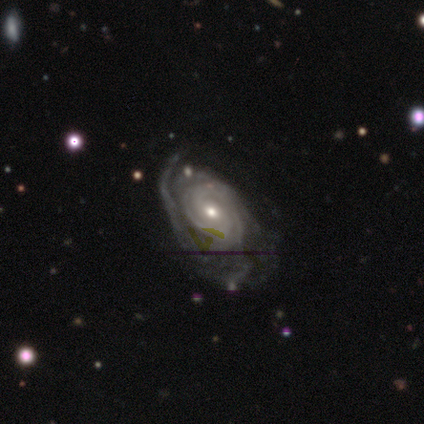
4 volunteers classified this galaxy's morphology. smooth-or-featured: featured or disk: 100% | smooth: 0% | star or artifact: 0%
  disk-edge-on: no: 100% | yes: 0%
    bar: no: 75% | weak: 25% | strong: 0%
    has-spiral-arms: yes: 75% | no: 25%
      spiral-winding: tight: 67% | medium: 33% | loose: 0%
      spiral-arm-count: can't tell: 67% | 2: 33% | 1: 0% | 3: 0% | 4: 0% | more than 4: 0%
    bulge-size: moderate: 50% (tied) | small: 50% (tied) | dominant: 0% | large: 0% | none: 0%
  merging: none: 50% | minor disturbance: 25% | major disturbance: 25% | merger: 0%